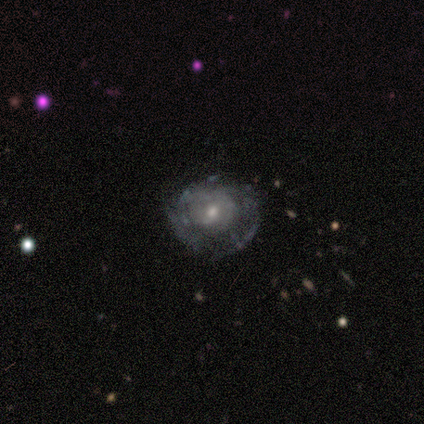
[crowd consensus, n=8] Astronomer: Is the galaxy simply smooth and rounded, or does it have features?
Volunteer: featured or disk — 62%.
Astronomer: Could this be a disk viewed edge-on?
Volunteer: no — 100%.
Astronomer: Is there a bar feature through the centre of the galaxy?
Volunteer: no — 100%.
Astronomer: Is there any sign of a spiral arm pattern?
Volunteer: yes — 60% (runner-up: no, 40%).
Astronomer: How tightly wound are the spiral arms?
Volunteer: medium — 100%.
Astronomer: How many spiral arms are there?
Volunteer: can't tell — 67%.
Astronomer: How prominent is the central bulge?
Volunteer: small — 80%.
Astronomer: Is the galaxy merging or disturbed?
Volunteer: none — 88%.